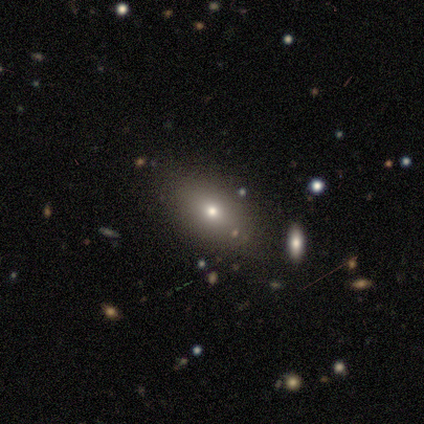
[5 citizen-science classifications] smooth-or-featured: smooth: 60% | featured or disk: 40% | star or artifact: 0%
  how-rounded: in between: 100% | round: 0% | cigar-shaped: 0%
  merging: none: 80% | merger: 20% | minor disturbance: 0% | major disturbance: 0%